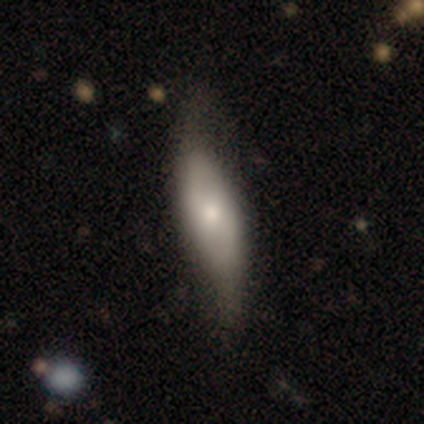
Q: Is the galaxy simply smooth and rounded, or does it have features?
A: smooth — 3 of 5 (60%).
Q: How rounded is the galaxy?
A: cigar-shaped — 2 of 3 (67%).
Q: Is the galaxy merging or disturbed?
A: none — 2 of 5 (40%, tied with major disturbance).